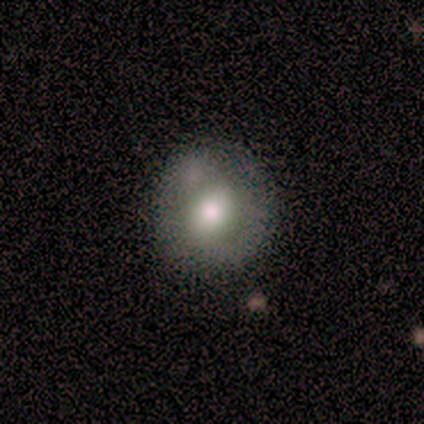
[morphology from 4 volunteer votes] Smooth or featured: smooth — 75% (featured or disk — 25%)
How rounded: round — 100%
Merging: none — 75% (minor disturbance — 25%)